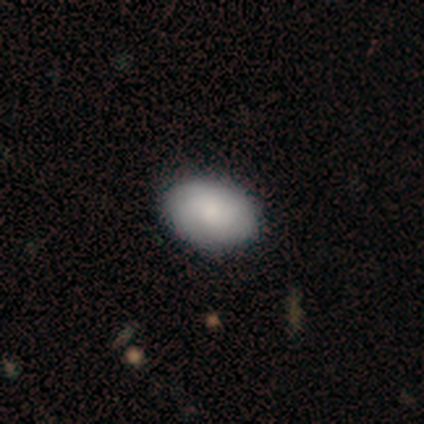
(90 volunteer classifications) A smooth galaxy with no disk features (77%) that is in between round and cigar-shaped (90%). Merging: none (89%).